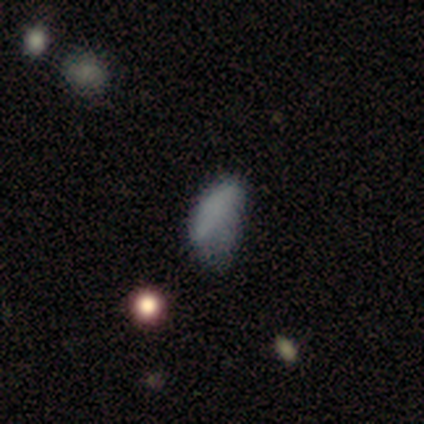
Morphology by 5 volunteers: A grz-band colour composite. It shows a smooth galaxy with no disk features (60%) that is in between round and cigar-shaped (100%). Merging: major disturbance (60%).